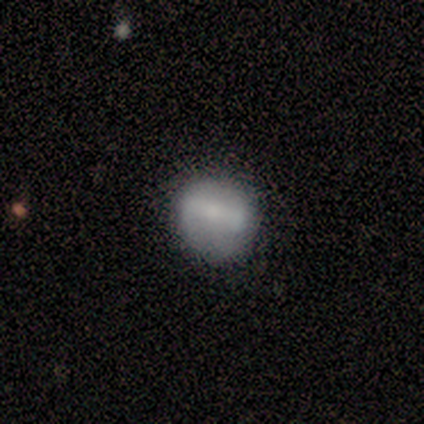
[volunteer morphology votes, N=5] A smooth galaxy with no disk features (60%) that is round (100%).

Vote fractions:
- Smooth or featured? smooth: 60% / featured or disk: 20% / star or artifact: 20%
- How rounded? round: 100% / in between: 0% / cigar-shaped: 0%
- Merging? none: 75% / minor disturbance: 25% / major disturbance: 0% / merger: 0%